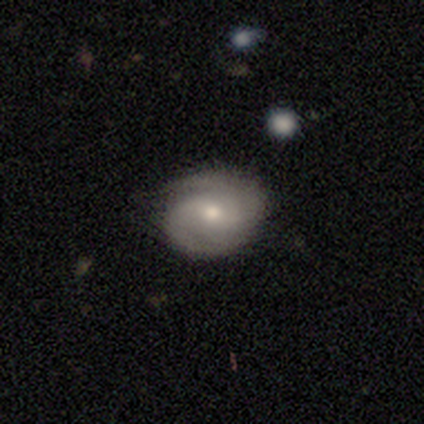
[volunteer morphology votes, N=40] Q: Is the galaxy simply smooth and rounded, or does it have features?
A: featured or disk — 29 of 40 (72%).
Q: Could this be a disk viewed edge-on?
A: no — 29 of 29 (100%).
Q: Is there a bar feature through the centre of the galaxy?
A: weak — 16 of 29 (55%).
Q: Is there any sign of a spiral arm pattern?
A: yes — 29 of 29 (100%).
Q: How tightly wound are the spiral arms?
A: tight — 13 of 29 (45%).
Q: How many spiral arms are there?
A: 2 — 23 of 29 (79%).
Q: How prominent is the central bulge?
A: small — 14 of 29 (48%).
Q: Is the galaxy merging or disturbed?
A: none — 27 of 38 (71%).